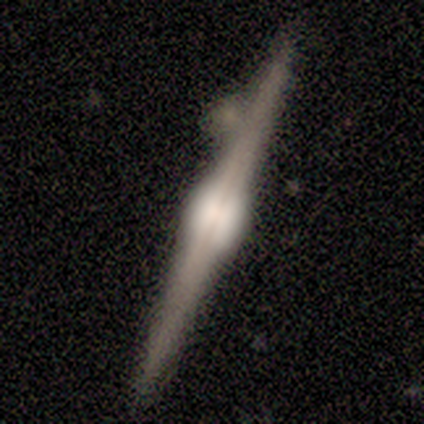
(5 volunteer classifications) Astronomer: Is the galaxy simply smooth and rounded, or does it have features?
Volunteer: featured or disk — 100%.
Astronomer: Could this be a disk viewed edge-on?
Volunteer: yes — 100%.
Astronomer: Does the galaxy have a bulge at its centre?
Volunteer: rounded — 80%.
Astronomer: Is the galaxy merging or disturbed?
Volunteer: none — 40%, tied with minor disturbance at 40%.